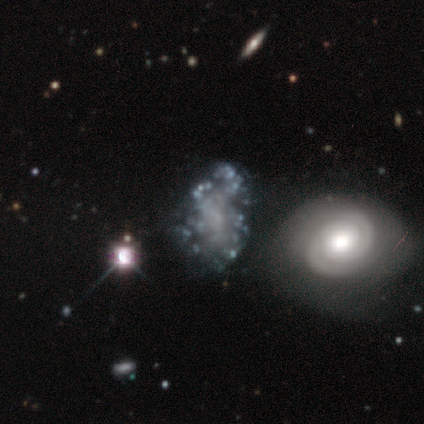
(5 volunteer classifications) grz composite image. It shows a featured or disk galaxy (100%) with no bar (100%), no spiral arms (80%) and no central bulge (80%). Merging: none (60%).